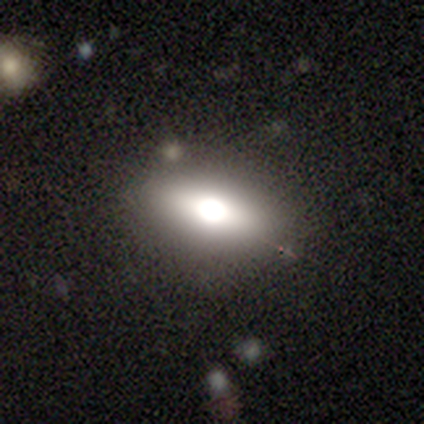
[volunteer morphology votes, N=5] This appears to be a featured or disk galaxy (60%) with no bar (67%), no spiral arms (100%) and a large central bulge (100%). Merging: none (100%).